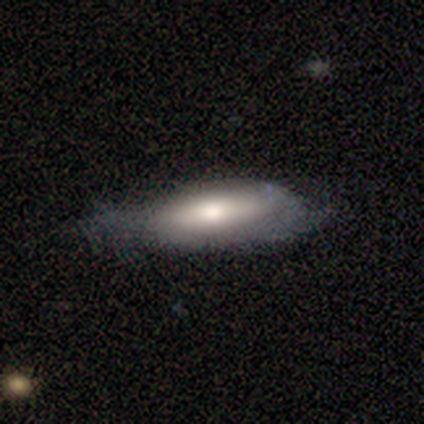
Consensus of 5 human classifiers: Morphology: type=featured or disk (60%); edge-on=no (67%); bar=weak (50%, tied with no); spiral arms=yes (50%, tied with no); winding=tight (100%); arm count=can't tell (100%); bulge=large (50%, tied with moderate); merging=minor disturbance (40%, tied with major disturbance).